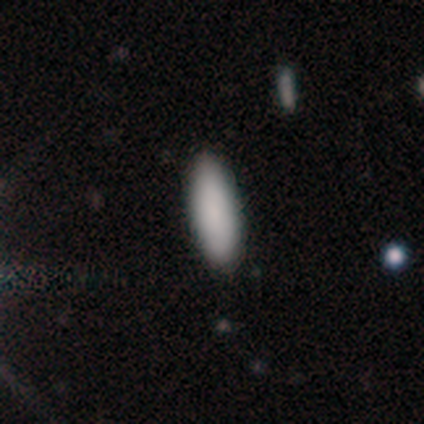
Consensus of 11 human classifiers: A smooth galaxy with no disk features (91%) that is in between round and cigar-shaped (60%).

Vote fractions:
- Smooth or featured? smooth: 91% / featured or disk: 9% / star or artifact: 0%
- How rounded? in between: 60% / cigar-shaped: 40% / round: 0%
- Merging? none: 91% / minor disturbance: 9% / major disturbance: 0% / merger: 0%